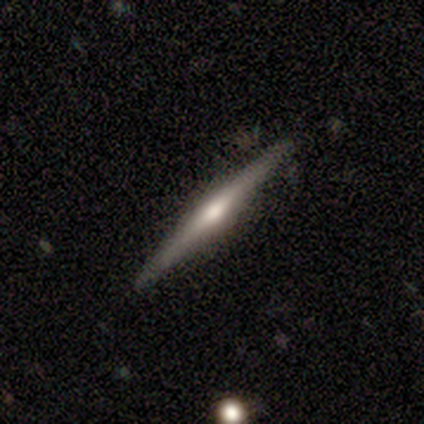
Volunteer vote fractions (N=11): Smooth or featured? 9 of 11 (82%) said featured or disk. Edge-on disk? 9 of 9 (100%) said yes. Edge-on bulge? 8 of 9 (89%) said rounded. Merging? 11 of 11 (100%) said none.